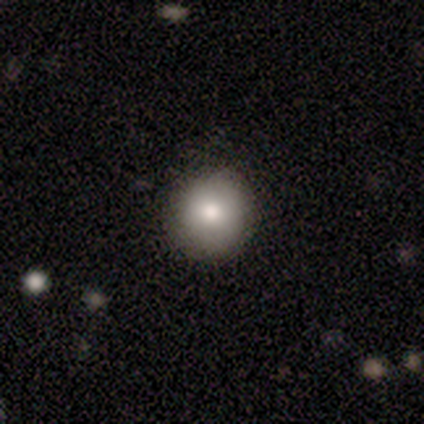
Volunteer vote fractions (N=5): Volunteers were most divided on "how rounded": round: 80%, in between: 20%, cigar-shaped: 0%. More confident: smooth or featured — smooth (100%); merging — none (100%).